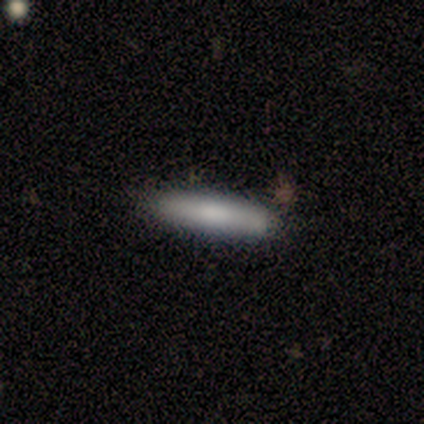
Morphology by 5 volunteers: Smooth or featured?
  - smooth: 80% *
  - star or artifact: 20%
  - featured or disk: 0%
How rounded?
  - cigar-shaped: 100% *
  - round: 0%
  - in between: 0%
Merging?
  - none: 100% *
  - minor disturbance: 0%
  - major disturbance: 0%
  - merger: 0%